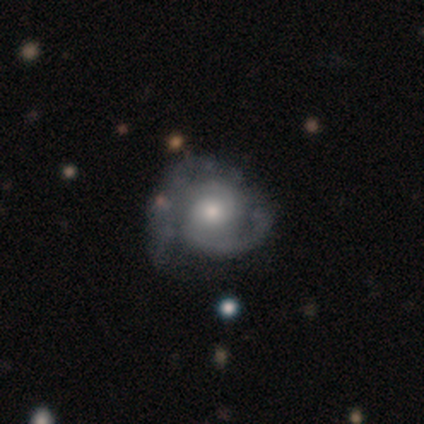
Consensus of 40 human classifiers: Overall: featured or disk (88%). Edge-on disk: no (100%). Bar: no (83%). Spiral arms: yes (100%). Spiral arm count: 2 (83%). Spiral winding: tight (54%; medium 40%). Bulge size: moderate (71%). Merging: none (28%; minor disturbance 25%).